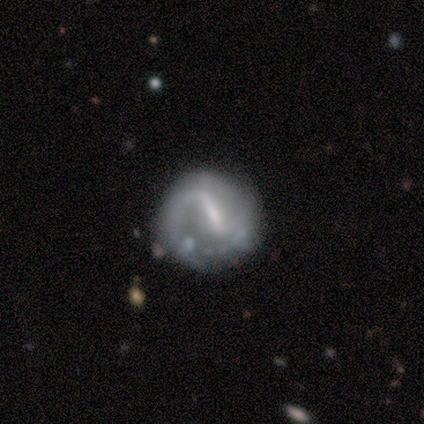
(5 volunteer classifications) This is clearly a featured or disk galaxy (80%). It is clearly not viewed edge-on (100%). Bar: likely strong (75%). Spiral arm pattern: likely no (75%). Central bulge: possibly moderate (50%). Merging: clearly none (80%).